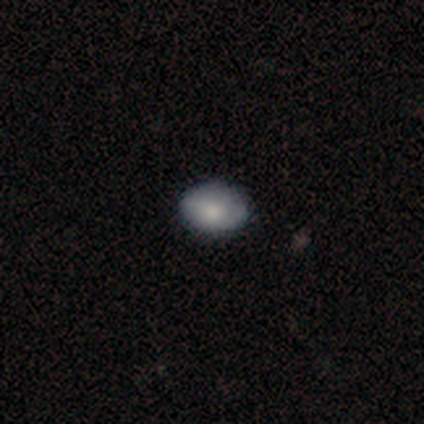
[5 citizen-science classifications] This is likely a smooth galaxy (60%). How rounded: clearly in between (100%). Merging: likely none (75%).